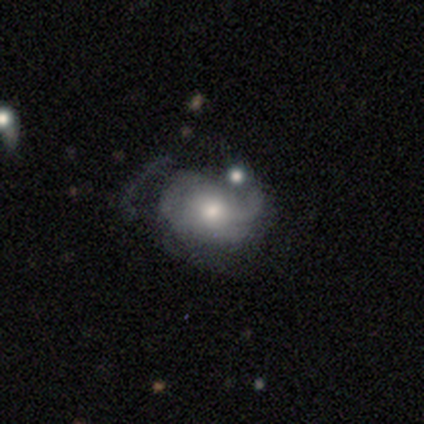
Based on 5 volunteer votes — A featured or disk galaxy (60%) with no bar (100%), 3 (50%, tied with can't tell) tight (50%, tied with medium) spiral arms (100%) and a moderate central bulge (100%). Merging: minor disturbance (60%).